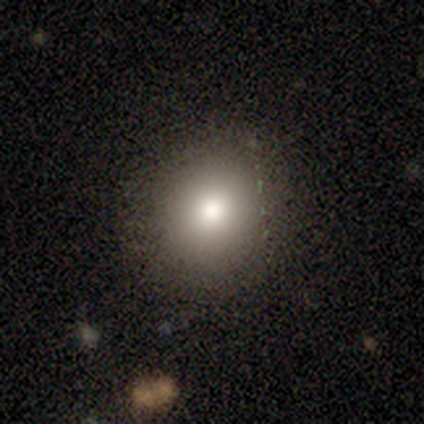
Smooth or featured? smooth (100%)
How rounded? round (100%)
Merging? none (100%)